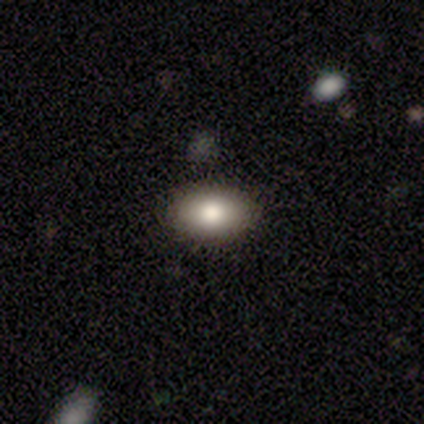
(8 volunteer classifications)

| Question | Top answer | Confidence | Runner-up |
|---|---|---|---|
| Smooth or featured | smooth | 88% | star or artifact (12%) |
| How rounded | in between | 100% | — |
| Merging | none | 100% | — |